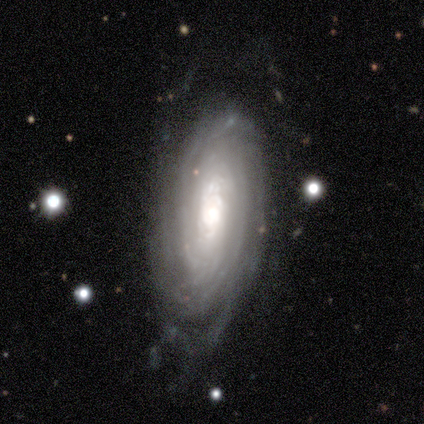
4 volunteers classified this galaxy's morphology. Smooth or featured: featured or disk — 75% (smooth — 25%)
Edge-on disk: no — 100%
Bar: strong — 67% (no — 33%)
Spiral arms: yes — 100%
Spiral winding: tight — 100%
Spiral arm count: 2 — 67% (4 — 33%)
Bulge size: moderate — 100%
Merging: none — 50% (tied with minor disturbance — 50%)